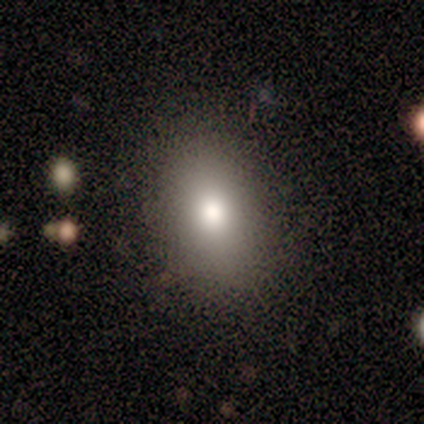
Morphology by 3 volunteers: A smooth galaxy with no disk features (67%) that is round (50%, tied with in between).

Vote fractions:
- Smooth or featured? smooth: 67% / featured or disk: 33% / star or artifact: 0%
- How rounded? round: 50% (tied) / in between: 50% (tied) / cigar-shaped: 0%
- Merging? minor disturbance: 67% / none: 33% / major disturbance: 0% / merger: 0%